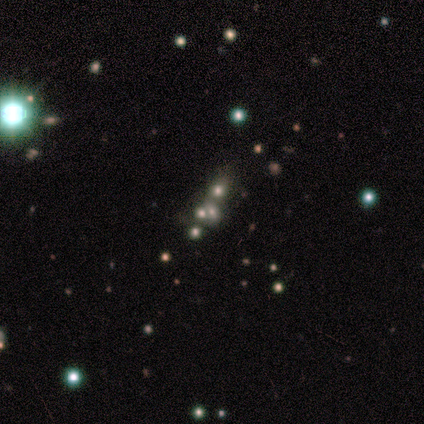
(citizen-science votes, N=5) Smooth or featured: featured or disk — 40% (tied with star or artifact — 40%)
Edge-on disk: no — 100%
Bar: no — 100%
Spiral arms: no — 100%
Bulge size: moderate — 100%
Merging: none — 67% (merger — 33%)